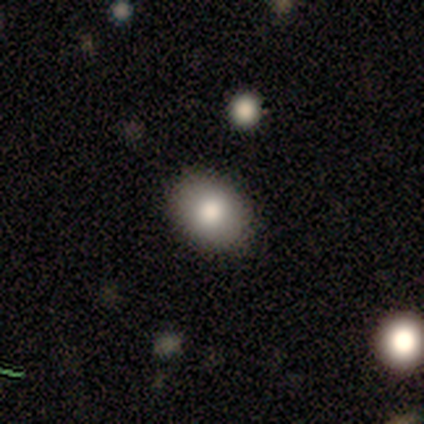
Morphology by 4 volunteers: type=smooth (75%); roundness=in between (100%); merging=none (100%).